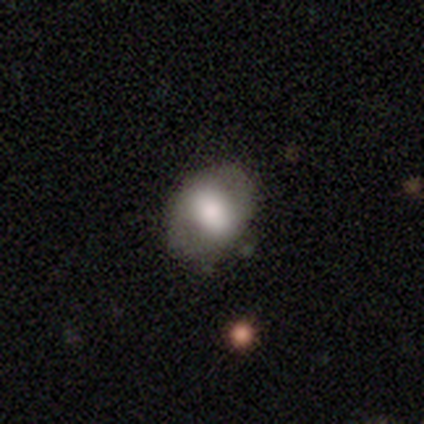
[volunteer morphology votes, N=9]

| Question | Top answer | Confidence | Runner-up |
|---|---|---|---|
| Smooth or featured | smooth | 67% | featured or disk (22%) |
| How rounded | in between | 83% | round (17%) |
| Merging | none | 100% | — |